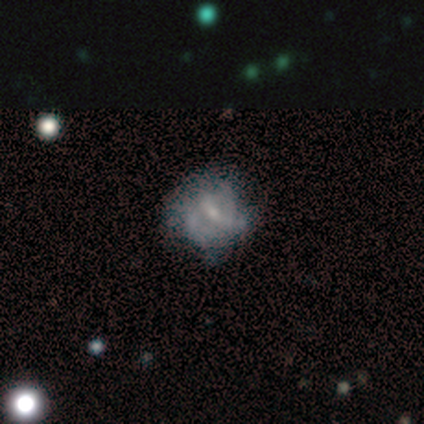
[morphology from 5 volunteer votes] This is likely a featured or disk galaxy (60%). It is clearly not viewed edge-on (100%). Bar: likely weak (67%). Spiral arm pattern: likely yes (67%). Spiral arm count: clearly 2 (100%). Spiral winding: possibly medium (50%, tied with loose). Central bulge: likely small (67%). Merging: likely none (60%).